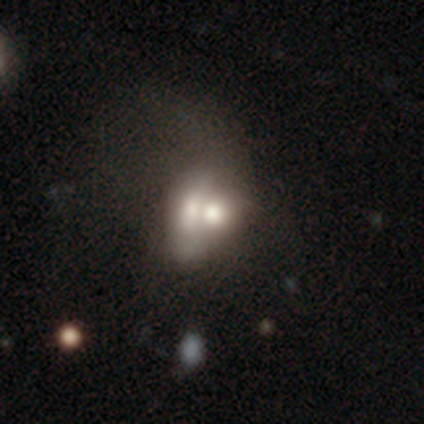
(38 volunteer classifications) smooth_or_featured: smooth (p=0.53) [alt: featured or disk p=0.45]
how_rounded: in between (p=0.75) [alt: round p=0.20]
merging: merger (p=0.70) [alt: major disturbance p=0.14]